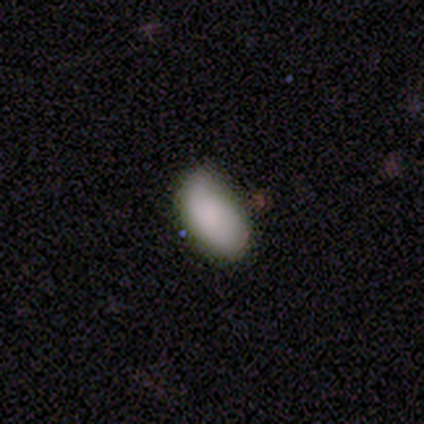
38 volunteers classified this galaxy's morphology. Volunteers were most divided on "merging": none: 51%, minor disturbance: 43%, major disturbance: 5%, merger: 0%. More confident: how rounded — in between (100%); smooth or featured — smooth (84%).